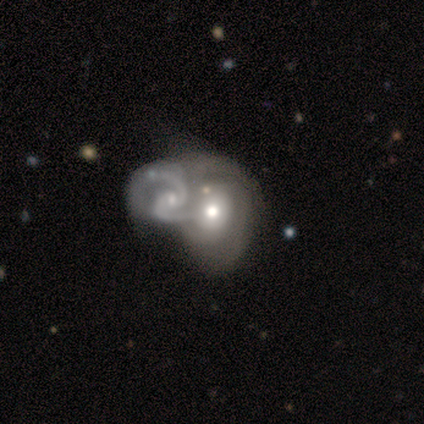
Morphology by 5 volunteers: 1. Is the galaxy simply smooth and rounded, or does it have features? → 100% featured or disk, 0% smooth, 0% star or artifact.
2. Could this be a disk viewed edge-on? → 100% no, 0% yes.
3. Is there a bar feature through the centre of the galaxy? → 80% no, 20% weak, 0% strong.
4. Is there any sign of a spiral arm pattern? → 100% yes, 0% no.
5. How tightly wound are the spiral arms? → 60% tight, 40% medium, 0% loose.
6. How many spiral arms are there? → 60% 2, 20% 1, 20% 3, 0% 4, 0% more than 4, 0% can't tell.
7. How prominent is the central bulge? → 80% moderate, 20% small, 0% dominant, 0% large, 0% none.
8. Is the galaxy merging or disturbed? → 80% merger, 20% none, 0% minor disturbance, 0% major disturbance.